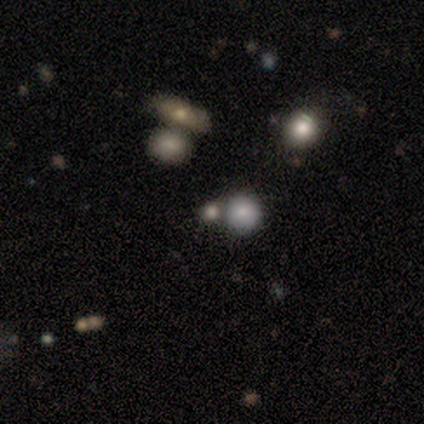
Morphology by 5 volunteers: This is likely a smooth galaxy (60%). How rounded: likely round (67%). Merging: clearly none (100%).